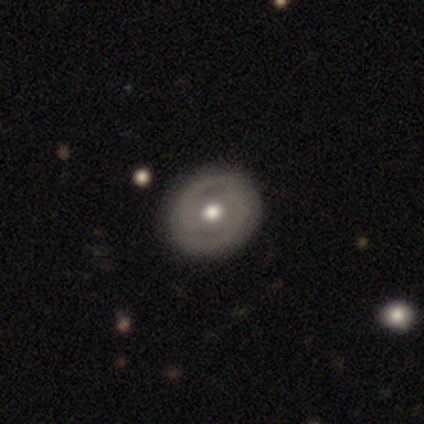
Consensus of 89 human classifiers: Morphology: type=featured or disk (64%); edge-on=no (96%); bar=no (51%); spiral arms=yes (82%); winding=tight (60%); arm count=2 (84%); bulge=moderate (78%); merging=none (89%).